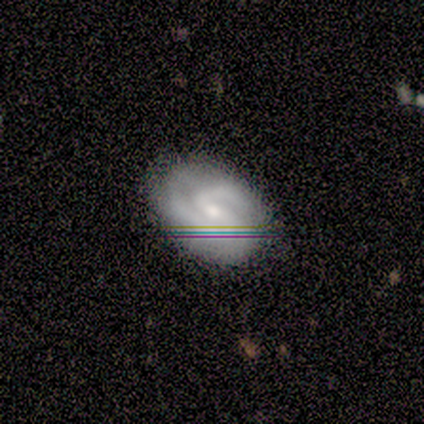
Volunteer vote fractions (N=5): A featured or disk galaxy (100%) with a weak bar (60%), 2 (80%) medium (80%) spiral arms (100%) and a small central bulge (60%).

Vote fractions:
- Smooth or featured? featured or disk: 100% / smooth: 0% / star or artifact: 0%
- Edge-on disk? no: 100% / yes: 0%
- Bar? weak: 60% / strong: 20% / no: 20%
- Spiral arms? yes: 100% / no: 0%
- Spiral winding? medium: 80% / tight: 20% / loose: 0%
- Spiral arm count? 2: 80% / can't tell: 20% / 1: 0% / 3: 0% / 4: 0% / more than 4: 0%
- Bulge size? small: 60% / moderate: 20% / none: 20% / dominant: 0% / large: 0%
- Merging? none: 100% / minor disturbance: 0% / major disturbance: 0% / merger: 0%